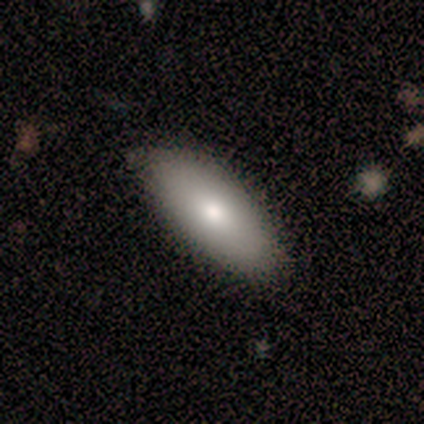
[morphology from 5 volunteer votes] This is clearly a smooth galaxy (100%). How rounded: clearly in between (100%). Merging: clearly none (80%).